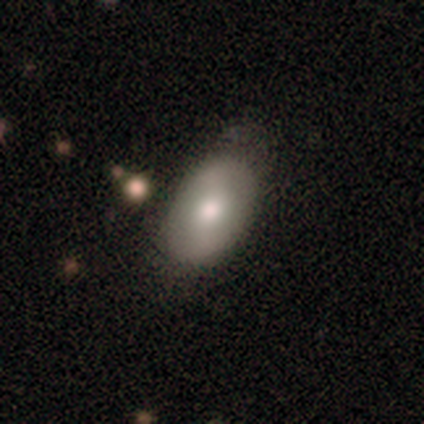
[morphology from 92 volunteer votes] A smooth galaxy with no disk features (70%) that is in between round and cigar-shaped (91%).

Vote fractions:
- Smooth or featured? smooth: 70% / featured or disk: 28% / star or artifact: 2%
- How rounded? in between: 91% / round: 8% / cigar-shaped: 2%
- Merging? none: 68% / minor disturbance: 26% / major disturbance: 4% / merger: 2%